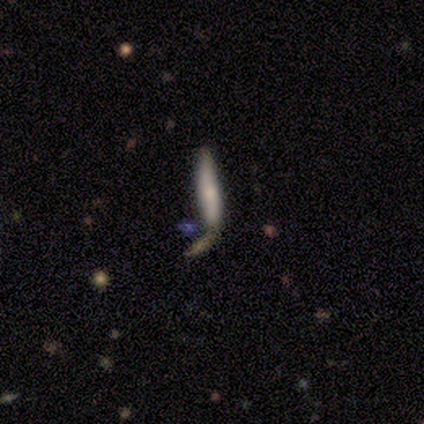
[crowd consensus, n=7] A smooth galaxy with no disk features (71%) that is cigar-shaped (100%). Merging: merger (57%).